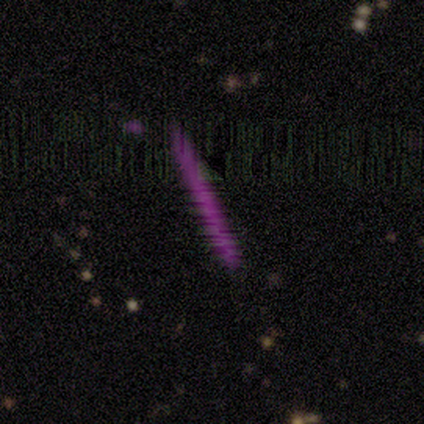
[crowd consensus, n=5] Smooth or featured? star or artifact (60%)